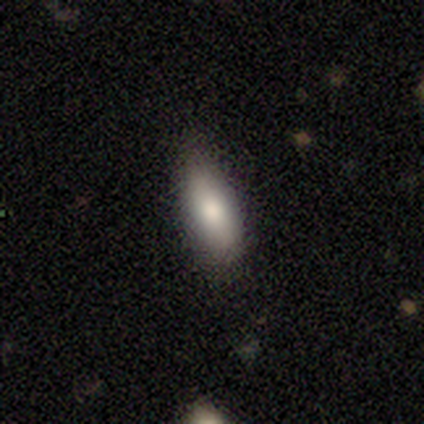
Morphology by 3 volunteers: Overall: smooth (100%). How rounded: in between (67%; cigar-shaped 33%). Merging: minor disturbance (67%; none 33%).